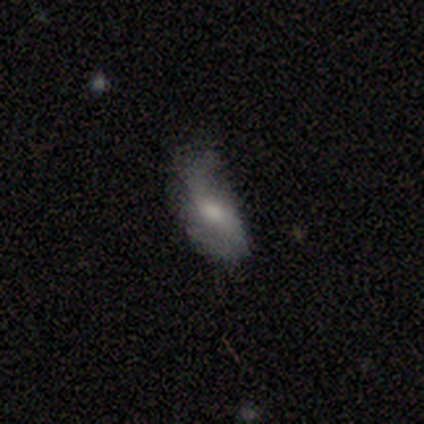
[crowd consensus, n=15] Q: Smooth or featured?
A: smooth (47%); tied with: featured or disk (47%)
Q: How rounded?
A: in between (71%); runner-up: cigar-shaped (29%)
Q: Merging?
A: minor disturbance (43%); runner-up: major disturbance (36%)